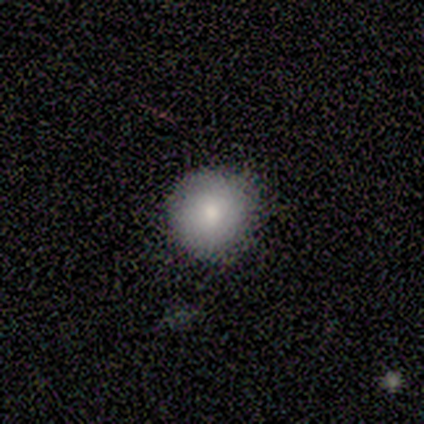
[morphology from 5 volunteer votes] Overall: smooth (80%). How rounded: round (75%). Merging: none (75%).